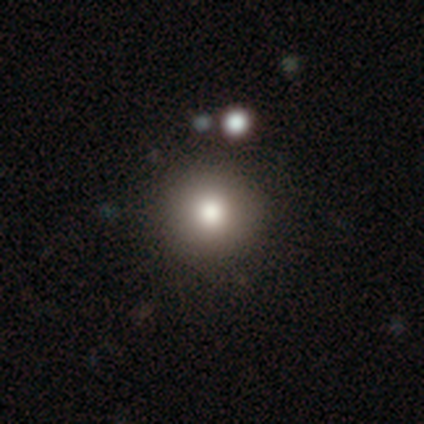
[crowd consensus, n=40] Overall: smooth (78%). How rounded: round (97%). Merging: none (45%; minor disturbance 11%).